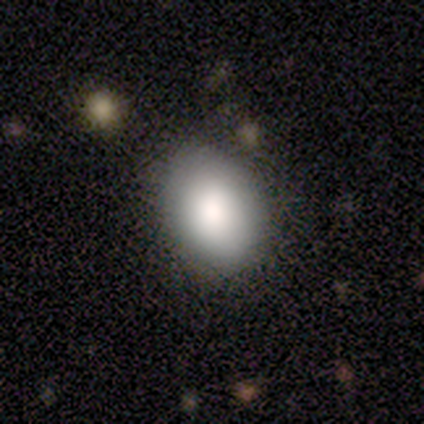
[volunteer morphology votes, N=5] type=smooth (60%); roundness=round (67%); merging=none (75%).